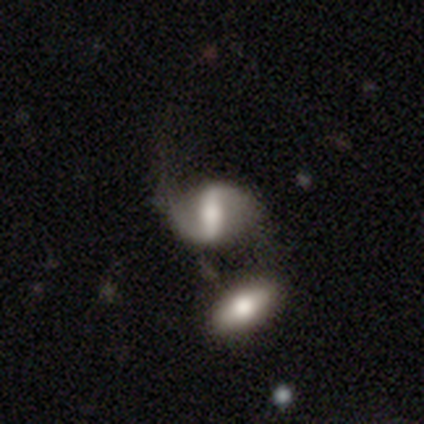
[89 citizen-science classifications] This appears to be a featured or disk galaxy (73%) with a strong bar (66%), 2 (80%) loose (72%) spiral arms (78%) and a moderate central bulge (42%). Merging: merger (34%).